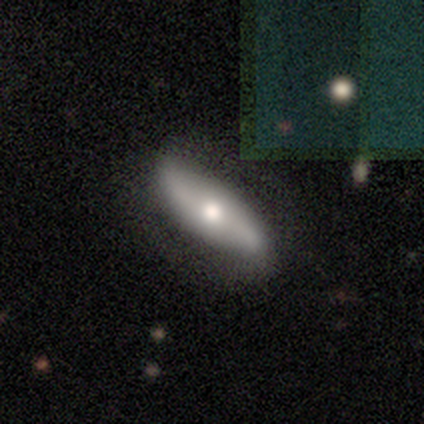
This is likely a featured or disk galaxy (74%). It is likely not viewed edge-on (61%). Bar: possibly no (53%). Spiral arm pattern: likely yes (76%). Spiral arm count: clearly 2 (92%). Spiral winding: likely loose (62%). Central bulge: likely moderate (71%). Merging: likely none (68%).